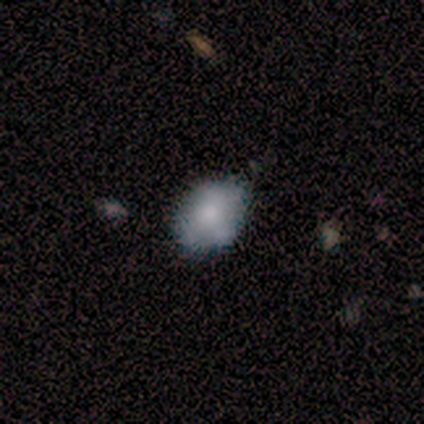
Overall: smooth (100%). How rounded: round (60%; in between 40%). Merging: none (80%).